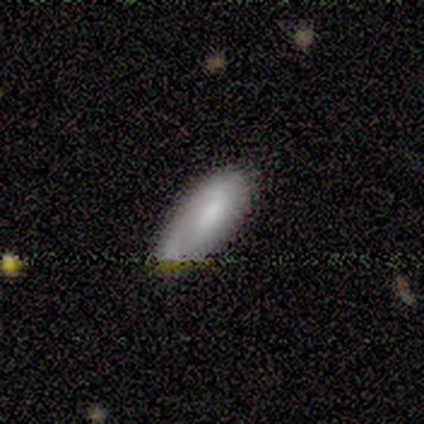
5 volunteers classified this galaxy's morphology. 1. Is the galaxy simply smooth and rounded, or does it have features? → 80% smooth, 20% star or artifact, 0% featured or disk.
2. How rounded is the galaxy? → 100% in between, 0% round, 0% cigar-shaped.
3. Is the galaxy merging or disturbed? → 50% none (tied), 50% minor disturbance (tied), 0% major disturbance, 0% merger.